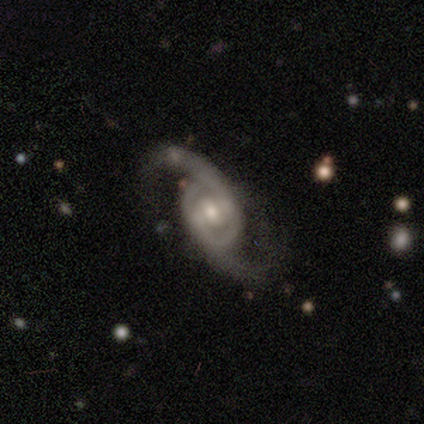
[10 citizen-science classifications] smooth-or-featured: featured or disk: 90% | star or artifact: 10% | smooth: 0%
  disk-edge-on: no: 89% | yes: 11%
    bar: weak: 88% | no: 12% | strong: 0%
    has-spiral-arms: yes: 100% | no: 0%
      spiral-winding: medium: 75% | loose: 25% | tight: 0%
      spiral-arm-count: 2: 100% | 1: 0% | 3: 0% | 4: 0% | more than 4: 0% | can't tell: 0%
    bulge-size: moderate: 62% | small: 38% | dominant: 0% | large: 0% | none: 0%
  merging: none: 89% | minor disturbance: 11% | major disturbance: 0% | merger: 0%